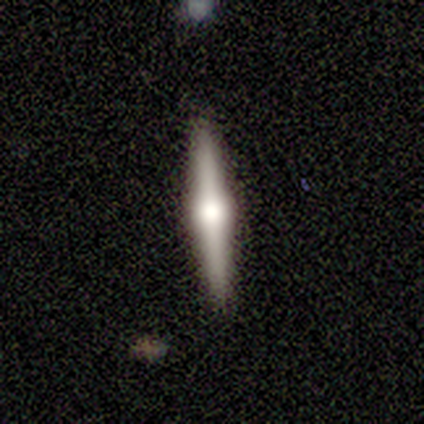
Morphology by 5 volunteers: Q: Smooth or featured?
A: smooth (60%); runner-up: featured or disk (40%)
Q: How rounded?
A: cigar-shaped (100%)
Q: Merging?
A: none (100%)